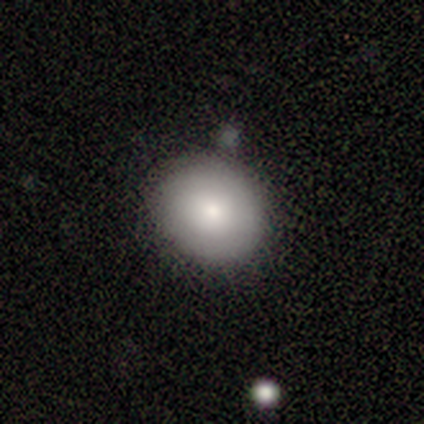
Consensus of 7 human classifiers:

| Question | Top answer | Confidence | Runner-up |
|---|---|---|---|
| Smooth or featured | smooth | 57% | featured or disk (29%) |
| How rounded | round | 100% | — |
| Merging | none | 83% | merger (17%) |